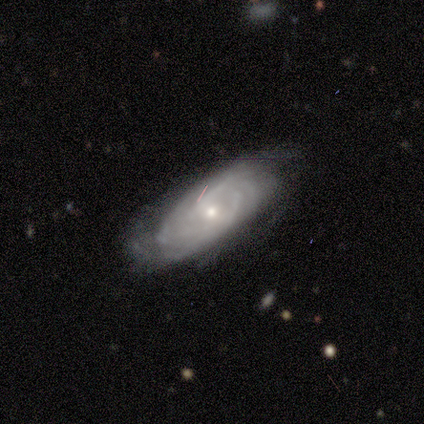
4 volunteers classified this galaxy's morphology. smooth_or_featured: featured or disk (p=0.75) [alt: smooth p=0.25]
disk_edge_on: no (p=1.00)
bar: strong (p=0.33) [tied with: weak p=0.33, no p=0.33]
has_spiral_arms: yes (p=1.00)
spiral_winding: tight (p=0.67) [alt: medium p=0.33]
spiral_arm_count: can't tell (p=0.67) [alt: more than 4 p=0.33]
bulge_size: moderate (p=0.33) [tied with: small p=0.33, none p=0.33]
merging: none (p=1.00)